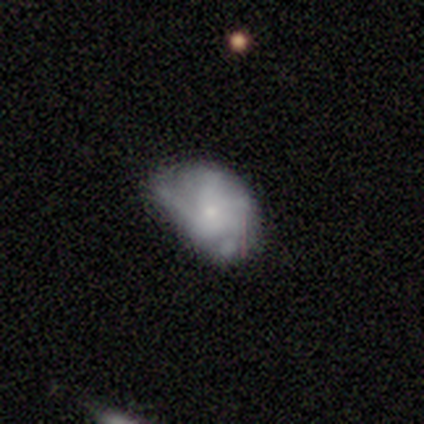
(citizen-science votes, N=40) Smooth or featured? 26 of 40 (65%) said featured or disk. Edge-on disk? 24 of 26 (92%) said no. Bar? 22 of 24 (92%) said no. Spiral arms? 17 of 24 (71%) said yes. Spiral winding? 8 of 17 (47%) said medium. Spiral arm count? 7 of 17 (41%) said 4. Bulge size? 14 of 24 (58%) said small. Merging? 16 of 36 (44%) said none.